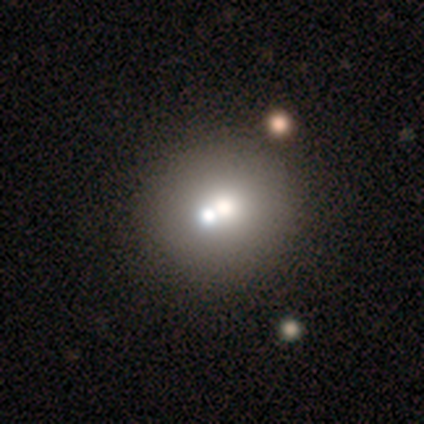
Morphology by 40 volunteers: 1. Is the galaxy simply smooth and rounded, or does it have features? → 82% smooth, 12% featured or disk, 5% star or artifact.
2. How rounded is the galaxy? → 91% round, 9% in between, 0% cigar-shaped.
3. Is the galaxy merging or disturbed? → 47% merger, 34% none, 8% minor disturbance, 3% major disturbance.